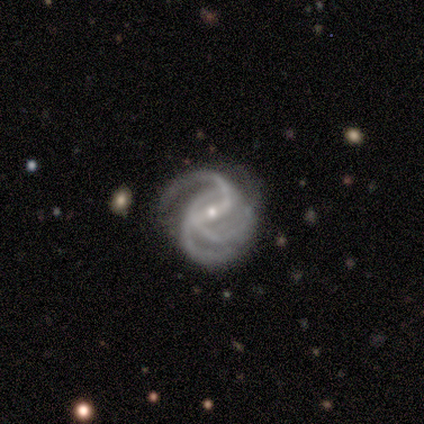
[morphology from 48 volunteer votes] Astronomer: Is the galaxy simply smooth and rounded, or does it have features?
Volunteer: featured or disk — 94%.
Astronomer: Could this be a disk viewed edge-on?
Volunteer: no — 100%.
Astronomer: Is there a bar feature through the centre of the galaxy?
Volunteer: weak — 42% (runner-up: strong, 40%).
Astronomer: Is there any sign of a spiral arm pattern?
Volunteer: yes — 100%.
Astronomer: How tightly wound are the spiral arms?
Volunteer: medium — 47% (runner-up: tight, 38%).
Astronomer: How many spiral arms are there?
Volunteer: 3 — 60%.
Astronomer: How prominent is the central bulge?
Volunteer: small — 80%.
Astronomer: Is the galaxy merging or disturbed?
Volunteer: none — 64%.